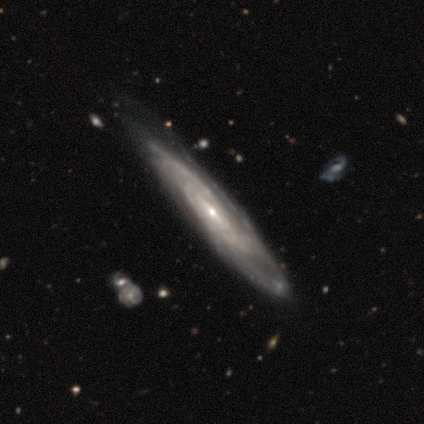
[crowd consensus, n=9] featured or disk 89%, smooth 11%, star or artifact 0%. Down the decision tree: edge-on disk — no (100%); bar — weak (38%, tied with no); spiral arms — yes (100%); spiral arm count — can't tell (62%); spiral winding — tight (75%); bulge size — small (75%); merging — none (56%).